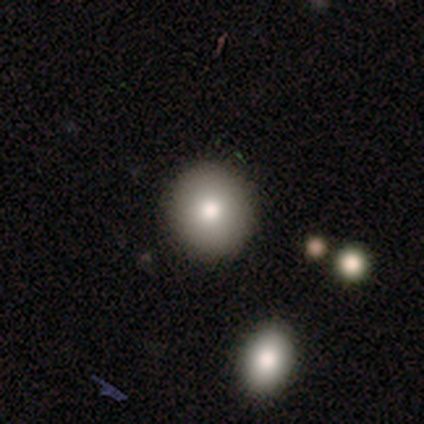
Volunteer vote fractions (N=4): Smooth or featured? smooth (100%)
How rounded? round (100%)
Merging? none (75%)